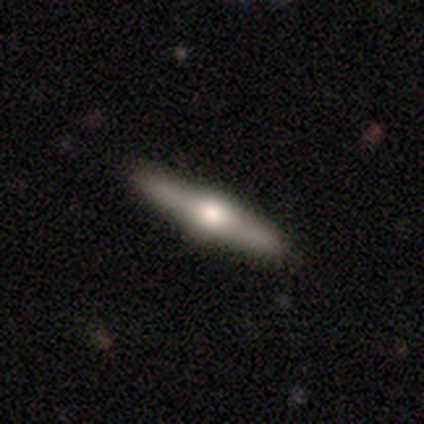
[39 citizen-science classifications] featured or disk 87%, smooth 8%, star or artifact 5%. Down the decision tree: edge-on disk — yes (97%); edge-on bulge — rounded (94%); merging — none (95%).